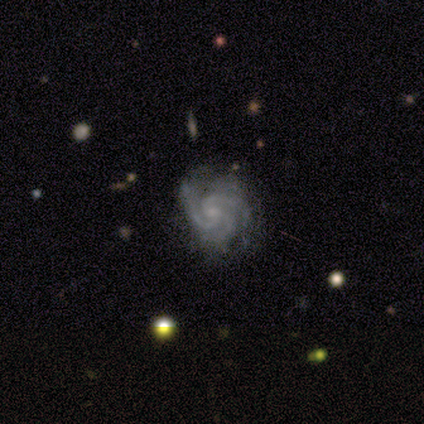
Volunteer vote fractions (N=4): Smooth or featured? featured or disk (75%)
Edge-on disk? no (100%)
Bar? no (100%)
Spiral arms? yes (100%)
Spiral winding? tight (67%)
Spiral arm count? 3 (100%)
Bulge size? small (67%)
Merging? none (100%)